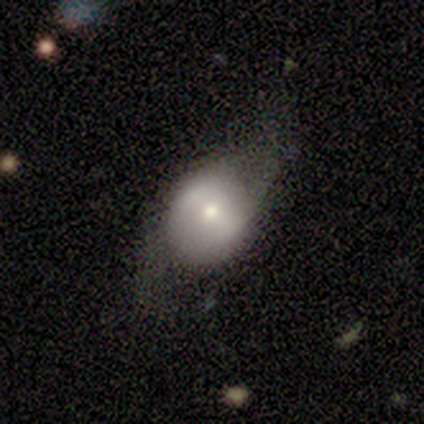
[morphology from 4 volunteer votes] featured or disk 50%, smooth 25%, star or artifact 25%. Down the decision tree: edge-on disk — no (100%); bar — strong (100%); spiral arms — yes (50%, tied with no); spiral arm count — 2 (100%); spiral winding — loose (100%); bulge size — small (100%); merging — major disturbance (67%).